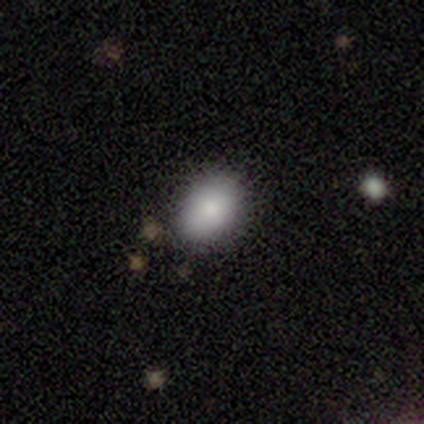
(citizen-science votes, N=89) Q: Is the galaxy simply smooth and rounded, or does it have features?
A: smooth — 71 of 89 (80%).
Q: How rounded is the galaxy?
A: in between — 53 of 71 (75%).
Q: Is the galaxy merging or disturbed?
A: none — 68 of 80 (85%).